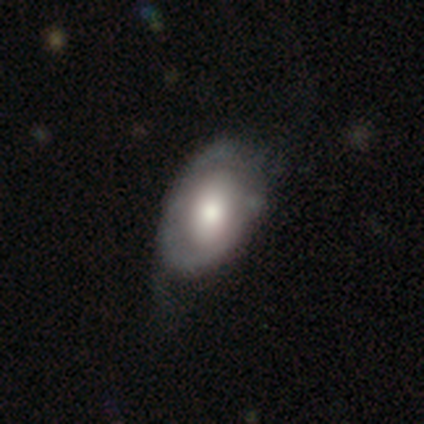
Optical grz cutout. It shows a featured or disk galaxy (56%) with no bar (76%), no spiral arms (62%) and a moderate central bulge (67%). Merging: none (50%).